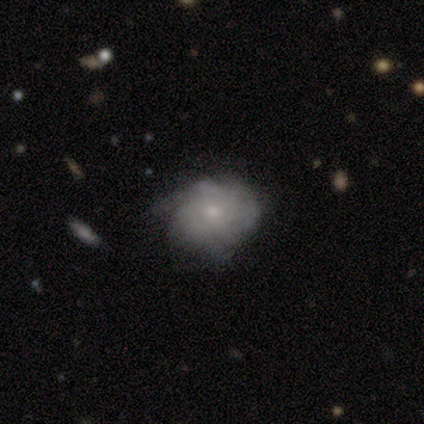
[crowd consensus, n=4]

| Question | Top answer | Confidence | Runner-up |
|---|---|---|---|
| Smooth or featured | smooth | 50% | tied: featured or disk (50%) |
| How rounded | round | 50% | tied: in between (50%) |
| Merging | none | 75% | major disturbance (25%) |